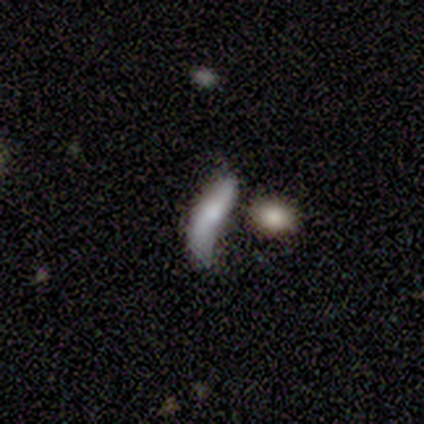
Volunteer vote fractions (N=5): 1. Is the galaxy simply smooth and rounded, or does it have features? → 60% featured or disk, 20% smooth, 20% star or artifact.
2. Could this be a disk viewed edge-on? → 67% no, 33% yes.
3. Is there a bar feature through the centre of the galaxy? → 100% no, 0% strong, 0% weak.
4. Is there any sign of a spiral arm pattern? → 50% yes (tied), 50% no (tied).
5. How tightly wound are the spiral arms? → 100% loose, 0% tight, 0% medium.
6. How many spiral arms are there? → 100% 2, 0% 1, 0% 3, 0% 4, 0% more than 4, 0% can't tell.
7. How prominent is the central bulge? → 100% moderate, 0% dominant, 0% large, 0% small, 0% none.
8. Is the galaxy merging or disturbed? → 50% minor disturbance, 25% none, 25% major disturbance, 0% merger.